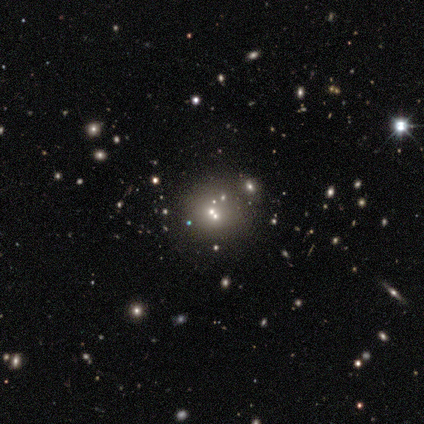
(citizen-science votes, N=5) smooth_or_featured: star or artifact (p=0.60) [alt: smooth p=0.20]